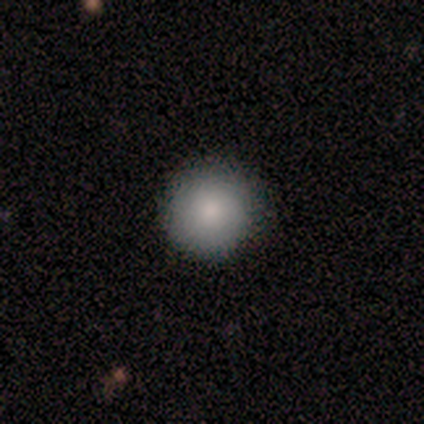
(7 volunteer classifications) A smooth galaxy with no disk features (71%) that is round (100%). Merging: none (83%).